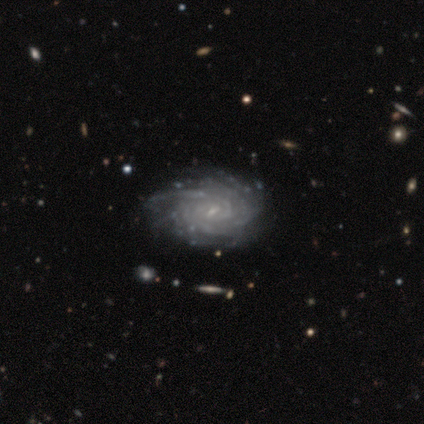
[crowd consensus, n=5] A featured or disk galaxy (80%) with no bar (50%), more than 4 (50%) tight (50%) spiral arms (100%) and a small central bulge (75%).

Vote fractions:
- Smooth or featured? featured or disk: 80% / star or artifact: 20% / smooth: 0%
- Edge-on disk? no: 100% / yes: 0%
- Bar? no: 50% / strong: 25% / weak: 25%
- Spiral arms? yes: 100% / no: 0%
- Spiral winding? tight: 50% / medium: 25% / loose: 25%
- Spiral arm count? more than 4: 50% / 3: 25% / can't tell: 25% / 1: 0% / 2: 0% / 4: 0%
- Bulge size? small: 75% / none: 25% / dominant: 0% / large: 0% / moderate: 0%
- Merging? minor disturbance: 50% / none: 25% / merger: 25% / major disturbance: 0%